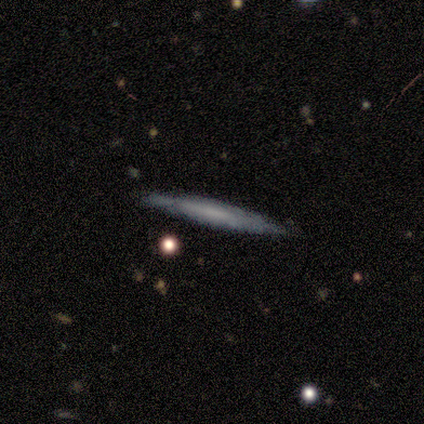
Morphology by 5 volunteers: Smooth or featured?
  - smooth: 60% *
  - featured or disk: 40%
  - star or artifact: 0%
How rounded?
  - cigar-shaped: 100% *
  - round: 0%
  - in between: 0%
Merging?
  - none: 80% *
  - major disturbance: 20%
  - minor disturbance: 0%
  - merger: 0%